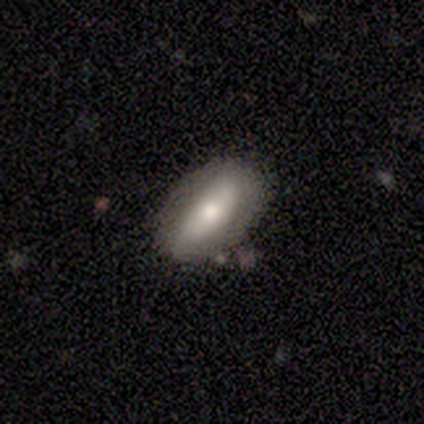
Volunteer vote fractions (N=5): Morphology: type=smooth (80%); roundness=in between (100%); merging=none (60%).